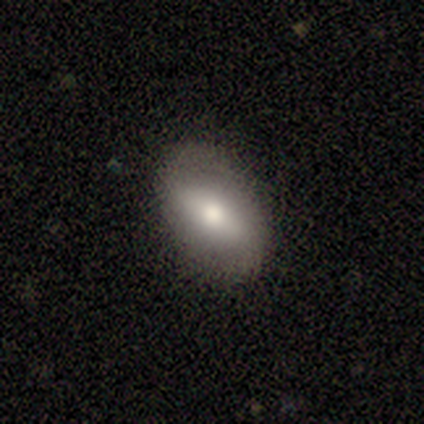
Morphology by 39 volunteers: Smooth or featured? 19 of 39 (49%, tied with featured or disk) said smooth. How rounded? 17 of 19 (89%) said in between. Merging? 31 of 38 (82%) said none.